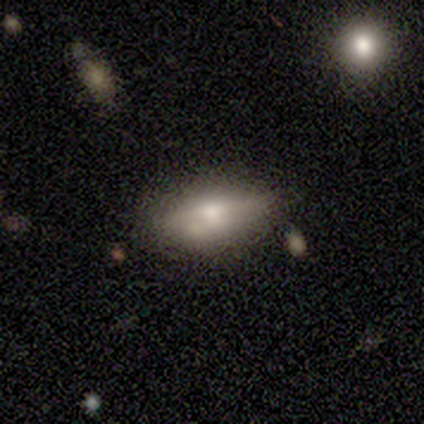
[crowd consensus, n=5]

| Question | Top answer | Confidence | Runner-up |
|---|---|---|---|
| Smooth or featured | featured or disk | 60% | smooth (40%) |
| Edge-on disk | yes | 100% | — |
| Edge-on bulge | rounded | 100% | — |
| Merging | none | 80% | minor disturbance (20%) |